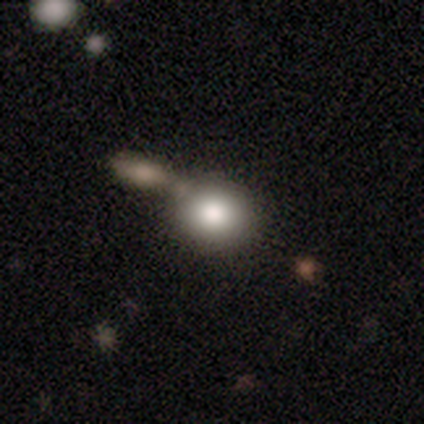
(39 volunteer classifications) Q: Smooth or featured?
A: smooth (85%); runner-up: featured or disk (13%)
Q: How rounded?
A: round (79%); runner-up: in between (21%)
Q: Merging?
A: merger (39%); runner-up: none (37%)